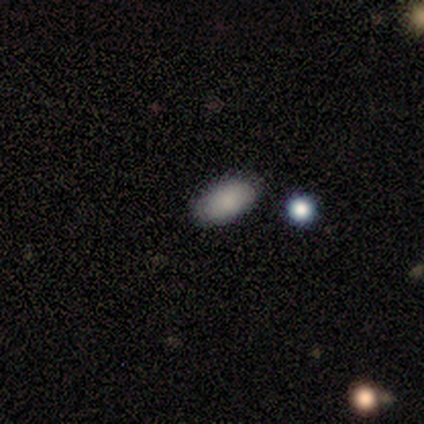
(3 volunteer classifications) A smooth galaxy with no disk features (67%) that is in between round and cigar-shaped (100%).

Vote fractions:
- Smooth or featured? smooth: 67% / star or artifact: 33% / featured or disk: 0%
- How rounded? in between: 100% / round: 0% / cigar-shaped: 0%
- Merging? none: 100% / minor disturbance: 0% / major disturbance: 0% / merger: 0%